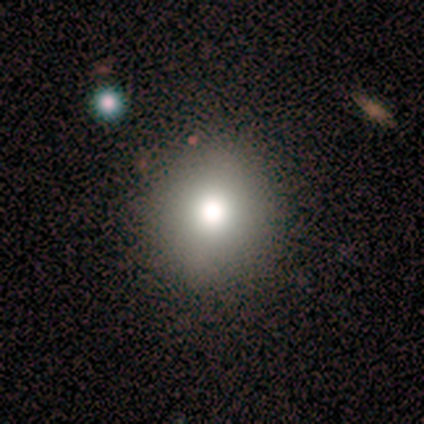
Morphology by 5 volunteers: Smooth or featured? 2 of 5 (40%, tied with star or artifact) said smooth. How rounded? 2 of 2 (100%) said round. Merging? 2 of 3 (67%) said none.